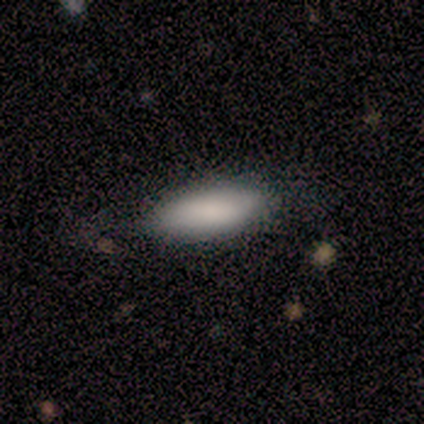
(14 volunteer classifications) Smooth or featured: smooth — 86% (featured or disk — 14%)
How rounded: in between — 83% (cigar-shaped — 17%)
Merging: none — 64% (minor disturbance — 36%)